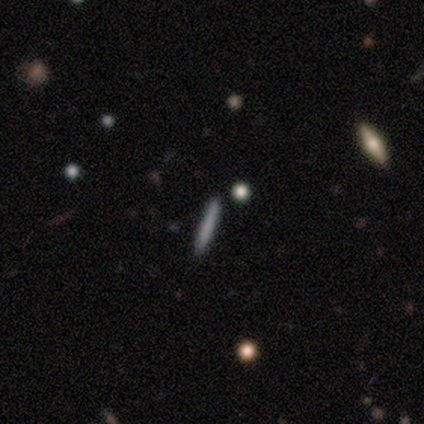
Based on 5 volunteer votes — A smooth galaxy with no disk features (80%) that is cigar-shaped (75%). Merging: none (100%).